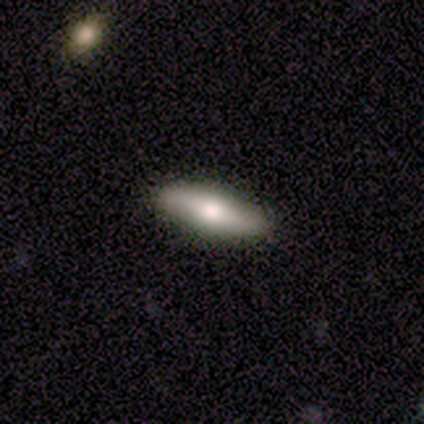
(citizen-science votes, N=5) Morphology: type=smooth (40%, tied with featured or disk); roundness=in between (50%, tied with cigar-shaped); merging=none (75%).